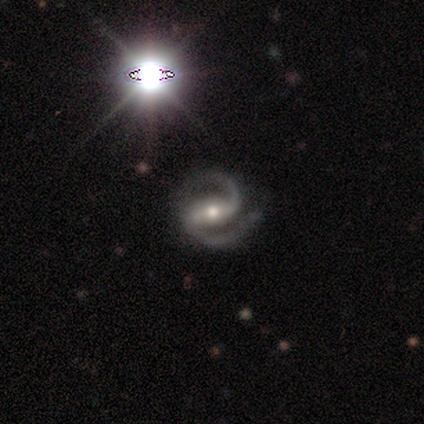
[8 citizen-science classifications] Q: Smooth or featured?
A: featured or disk (100%)
Q: Edge-on disk?
A: no (75%); runner-up: yes (25%)
Q: Bar?
A: strong (83%); runner-up: no (17%)
Q: Spiral arms?
A: yes (100%)
Q: Spiral winding?
A: medium (50%); runner-up: tight (33%)
Q: Spiral arm count?
A: 2 (100%)
Q: Bulge size?
A: moderate (83%); runner-up: small (17%)
Q: Merging?
A: none (62%); runner-up: major disturbance (25%)